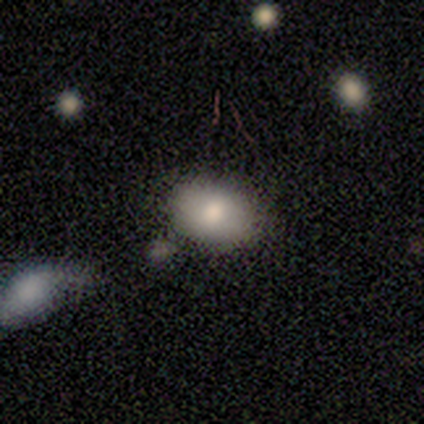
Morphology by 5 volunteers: This is clearly a smooth galaxy (80%). How rounded: possibly in between (50%). Merging: likely none (75%).